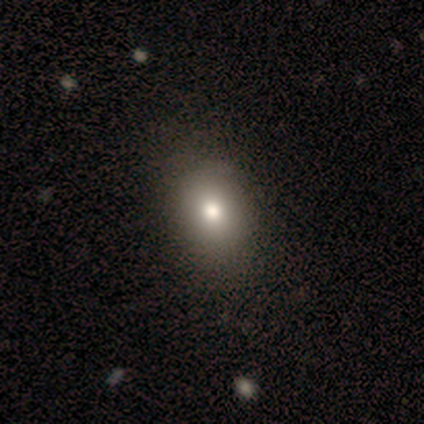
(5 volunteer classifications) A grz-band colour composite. It shows a smooth galaxy with no disk features (60%) that is round (33%, tied with in between and cigar-shaped). Merging: none (50%, tied with minor disturbance).